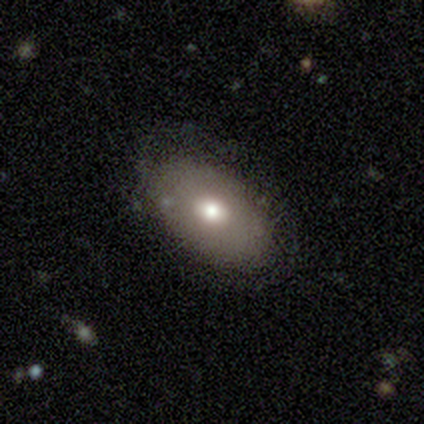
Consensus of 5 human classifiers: Smooth or featured? 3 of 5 (60%) said smooth. How rounded? 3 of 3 (100%) said in between. Merging? 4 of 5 (80%) said none.